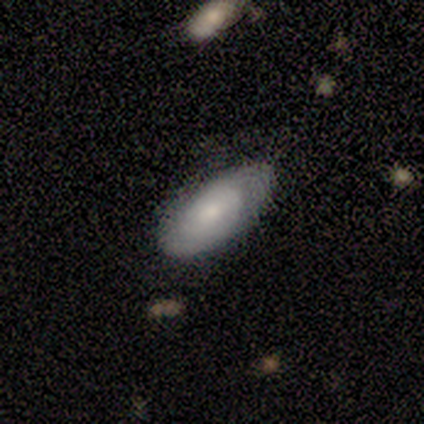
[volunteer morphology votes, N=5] Smooth or featured?
  - featured or disk: 60% *
  - smooth: 40%
  - star or artifact: 0%
Edge-on disk?
  - no: 100% *
  - yes: 0%
Bar?
  - no: 100% *
  - strong: 0%
  - weak: 0%
Spiral arms?
  - no: 67% *
  - yes: 33%
Bulge size?
  - small: 100% *
  - dominant: 0%
  - large: 0%
  - moderate: 0%
  - none: 0%
Merging?
  - none: 80% *
  - minor disturbance: 20%
  - major disturbance: 0%
  - merger: 0%